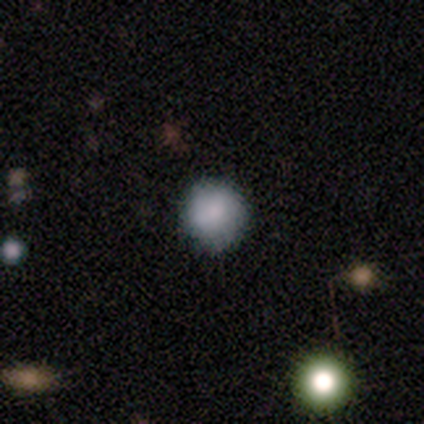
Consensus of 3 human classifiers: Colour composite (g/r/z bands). It shows a smooth galaxy with no disk features (100%) that is round (67%). Merging: none (67%).